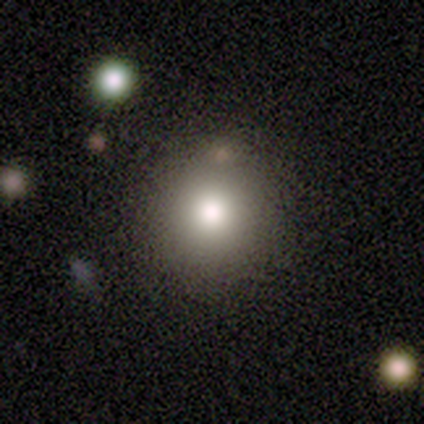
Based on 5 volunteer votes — Smooth or featured?
  - smooth: 100% *
  - featured or disk: 0%
  - star or artifact: 0%
How rounded?
  - round: 100% *
  - in between: 0%
  - cigar-shaped: 0%
Merging?
  - none: 100% *
  - minor disturbance: 0%
  - major disturbance: 0%
  - merger: 0%